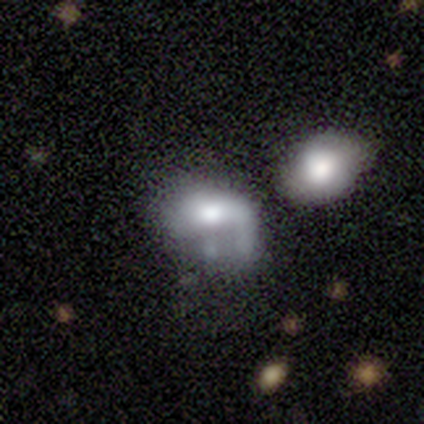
smooth_or_featured: smooth (p=0.60) [alt: featured or disk p=0.20]
how_rounded: round (p=0.67) [alt: in between p=0.33]
merging: major disturbance (p=0.50) [alt: none p=0.25]